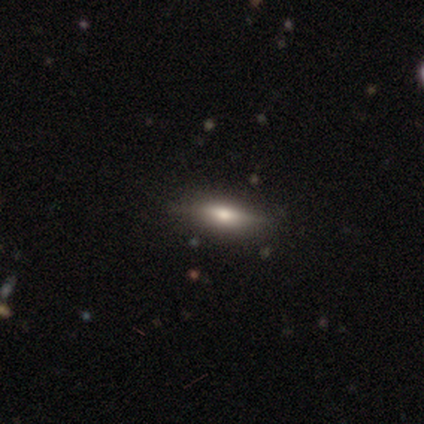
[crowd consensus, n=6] Overall: featured or disk (50%; smooth 33%). Edge-on disk: no (67%; yes 33%). Bar: weak (50%, tied with no). Spiral arms: no (100%). Bulge size: large (50%, tied with moderate). Merging: none (80%).